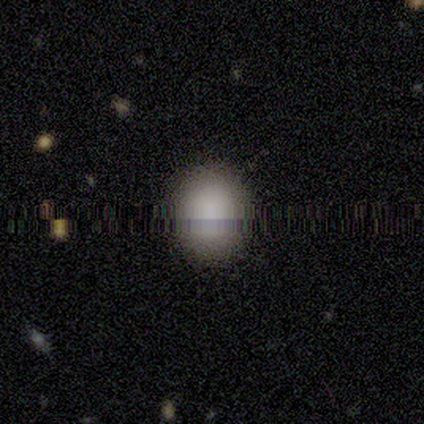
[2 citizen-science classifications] Volunteers were most divided on "how rounded" (2-way tie): round: 50%, in between: 50%, cigar-shaped: 0%. More confident: smooth or featured — smooth (100%); merging — none (100%).